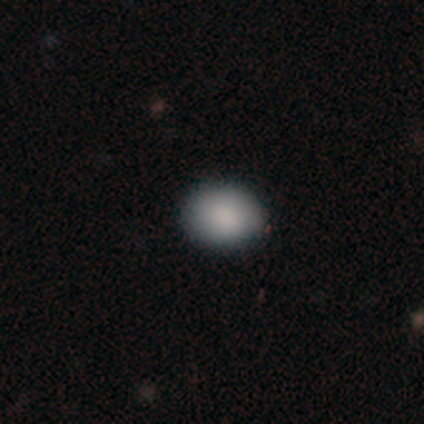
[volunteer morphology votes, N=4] smooth 100%, featured or disk 0%, star or artifact 0%. Down the decision tree: how rounded — in between (75%); merging — none (75%).